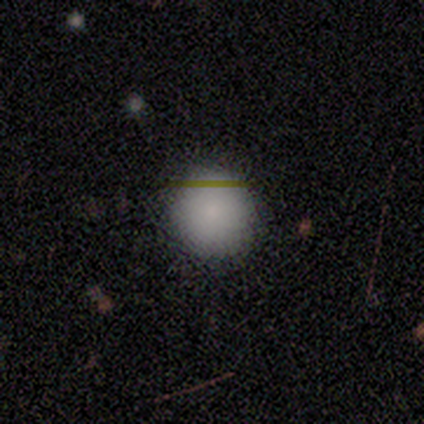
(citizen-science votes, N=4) Volunteers were most divided on "smooth or featured": smooth: 50%, featured or disk: 25%, star or artifact: 25%. More confident: how rounded — round (100%); merging — minor disturbance (67%).